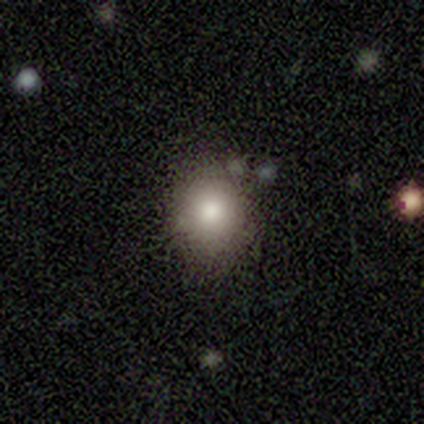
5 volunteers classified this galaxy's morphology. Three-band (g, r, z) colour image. It shows a smooth galaxy with no disk features (80%) that is round (100%). Merging: none (100%).